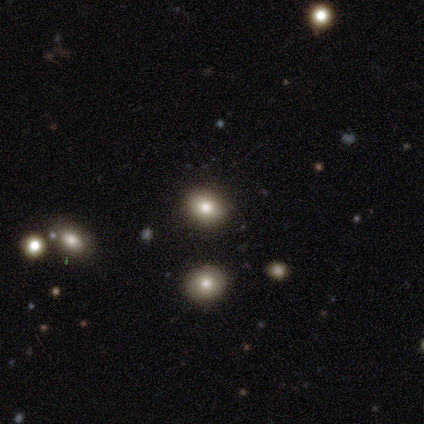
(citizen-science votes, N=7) This is possibly a star or artifact rather than a galaxy (57%).